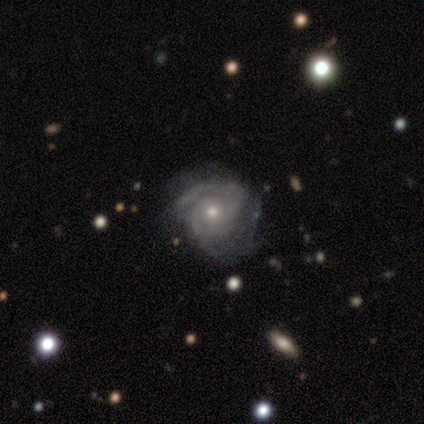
smooth_or_featured: featured or disk (p=1.00)
disk_edge_on: no (p=1.00)
bar: no (p=0.83) [alt: weak p=0.17]
has_spiral_arms: yes (p=1.00)
spiral_winding: tight (p=0.83) [alt: medium p=0.17]
spiral_arm_count: 2 (p=0.67) [alt: 3 p=0.17]
bulge_size: small (p=0.67) [alt: moderate p=0.33]
merging: none (p=0.50) [tied with: minor disturbance p=0.50]